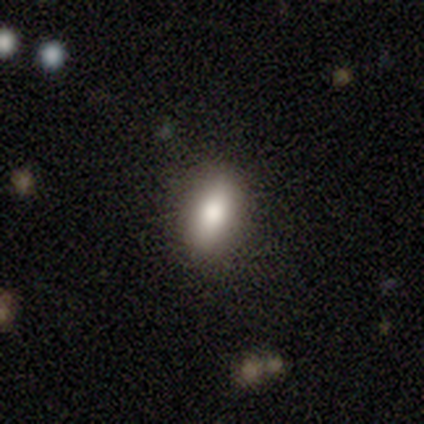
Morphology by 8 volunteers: This is clearly a smooth galaxy (100%). How rounded: clearly in between (88%). Merging: likely none (75%).